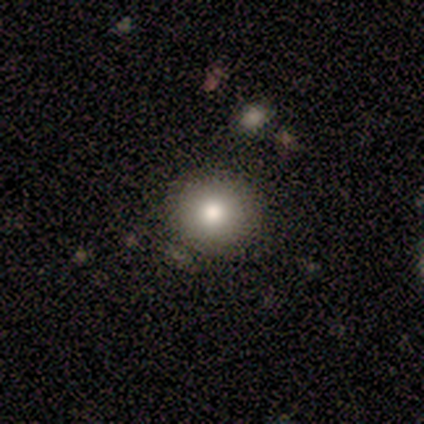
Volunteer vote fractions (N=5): Morphology: type=smooth (80%); roundness=round (100%); merging=none (100%).